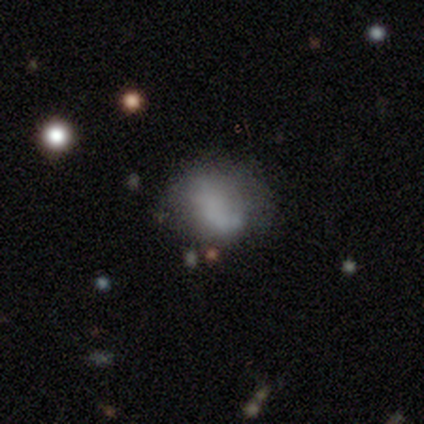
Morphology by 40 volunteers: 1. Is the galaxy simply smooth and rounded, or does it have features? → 65% smooth, 30% featured or disk, 5% star or artifact.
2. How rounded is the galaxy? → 62% in between, 38% round, 0% cigar-shaped.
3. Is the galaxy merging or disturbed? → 32% none, 21% major disturbance, 13% minor disturbance, 5% merger.